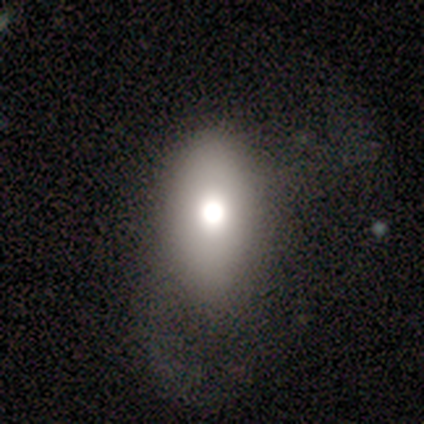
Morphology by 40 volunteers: A smooth galaxy with no disk features (75%) that is in between round and cigar-shaped (97%).

Vote fractions:
- Smooth or featured? smooth: 75% / featured or disk: 20% / star or artifact: 5%
- How rounded? in between: 97% / round: 3% / cigar-shaped: 0%
- Merging? major disturbance: 32% / none: 26% / minor disturbance: 13% / merger: 5%